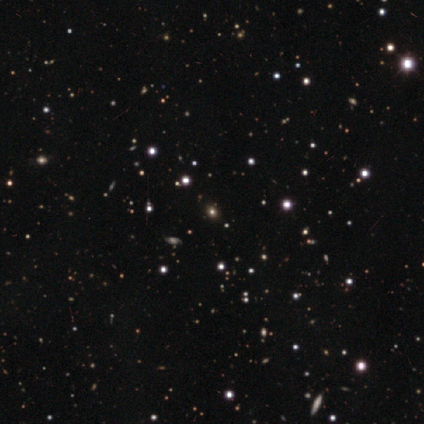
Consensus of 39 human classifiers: Smooth or featured? star or artifact (67%)